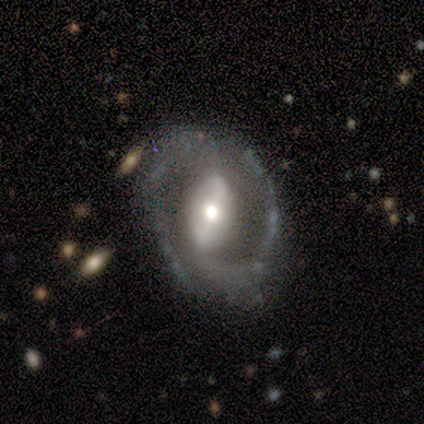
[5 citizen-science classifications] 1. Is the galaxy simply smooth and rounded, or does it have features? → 80% featured or disk, 20% star or artifact, 0% smooth.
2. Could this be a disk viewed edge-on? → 100% no, 0% yes.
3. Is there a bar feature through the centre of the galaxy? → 75% weak, 25% strong, 0% no.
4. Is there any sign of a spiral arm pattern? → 100% yes, 0% no.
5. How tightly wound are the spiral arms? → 50% medium, 25% tight, 25% loose.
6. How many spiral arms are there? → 100% 2, 0% 1, 0% 3, 0% 4, 0% more than 4, 0% can't tell.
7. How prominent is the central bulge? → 50% moderate, 25% large, 25% small, 0% dominant, 0% none.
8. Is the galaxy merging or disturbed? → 75% none, 25% minor disturbance, 0% major disturbance, 0% merger.